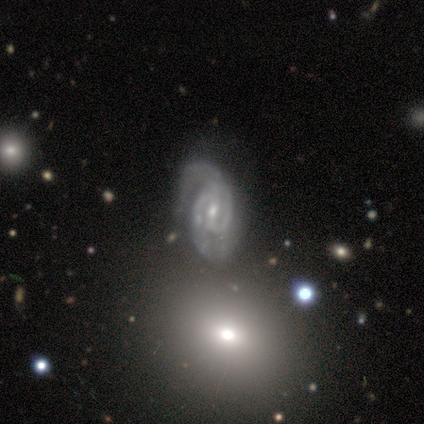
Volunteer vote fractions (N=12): A featured or disk galaxy (75%) with a weak bar (56%), 2 (75%) tight (38%, tied with medium) spiral arms (89%) and a small central bulge (56%). Merging: none (67%).